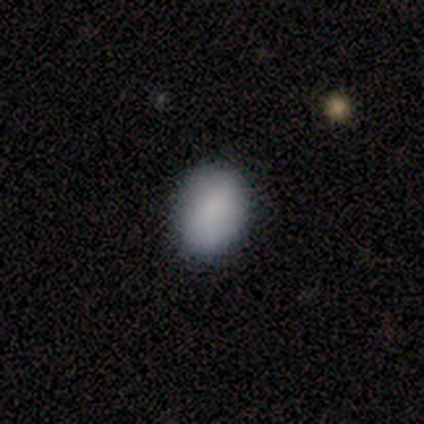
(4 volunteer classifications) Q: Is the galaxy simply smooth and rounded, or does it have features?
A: smooth — 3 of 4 (75%).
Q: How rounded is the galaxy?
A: in between — 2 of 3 (67%).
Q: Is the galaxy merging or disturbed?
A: none — 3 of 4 (75%).